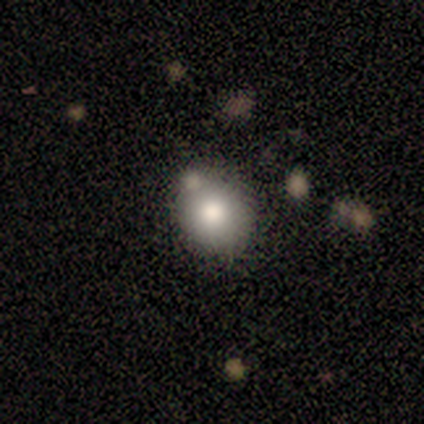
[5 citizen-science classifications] smooth-or-featured: smooth: 100% | featured or disk: 0% | star or artifact: 0%
  how-rounded: round: 80% | in between: 20% | cigar-shaped: 0%
  merging: none: 60% | minor disturbance: 20% | merger: 20% | major disturbance: 0%